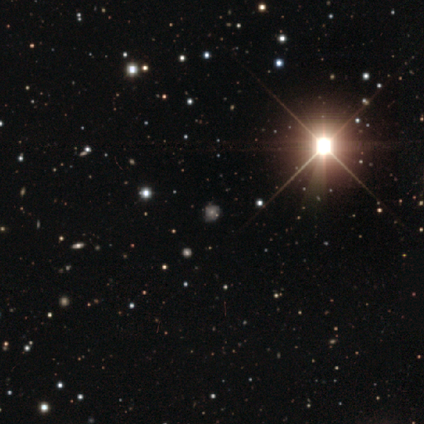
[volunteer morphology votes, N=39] A star or artifact, not a galaxy (82%).